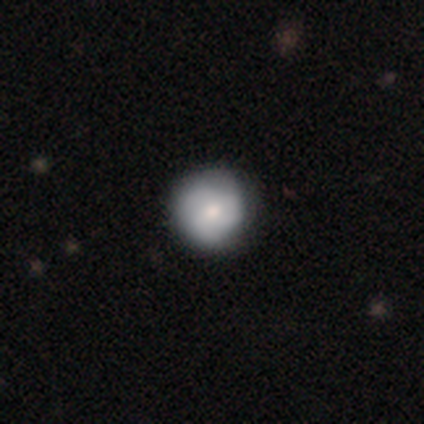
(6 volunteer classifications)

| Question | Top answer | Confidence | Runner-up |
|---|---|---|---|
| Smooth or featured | smooth | 67% | featured or disk (33%) |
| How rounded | round | 100% | — |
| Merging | none | 83% | minor disturbance (17%) |